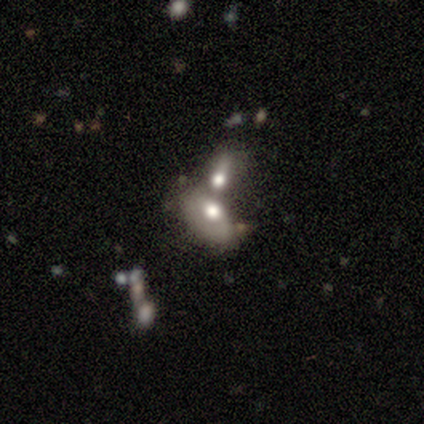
smooth-or-featured: smooth: 44% (tied) | featured or disk: 44% (tied) | star or artifact: 12%
  how-rounded: in between: 82% | round: 16% | cigar-shaped: 3%
  merging: merger: 83% | none: 9% | major disturbance: 7% | minor disturbance: 1%